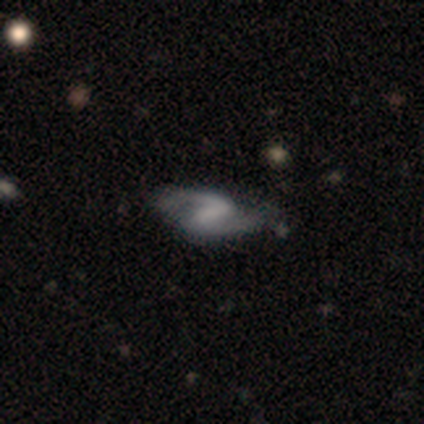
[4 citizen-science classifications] Smooth or featured?
  - featured or disk: 100% *
  - smooth: 0%
  - star or artifact: 0%
Edge-on disk?
  - no: 100% *
  - yes: 0%
Bar?
  - weak: 100% *
  - strong: 0%
  - no: 0%
Spiral arms?
  - yes: 100% *
  - no: 0%
Spiral winding?
  - medium: 75% *
  - loose: 25%
  - tight: 0%
Spiral arm count?
  - 2: 100% *
  - 1: 0%
  - 3: 0%
  - 4: 0%
  - more than 4: 0%
  - can't tell: 0%
Bulge size?
  - none: 75% *
  - small: 25%
  - dominant: 0%
  - large: 0%
  - moderate: 0%
Merging?
  - none: 50% * (tied)
  - minor disturbance: 50% * (tied)
  - major disturbance: 0%
  - merger: 0%